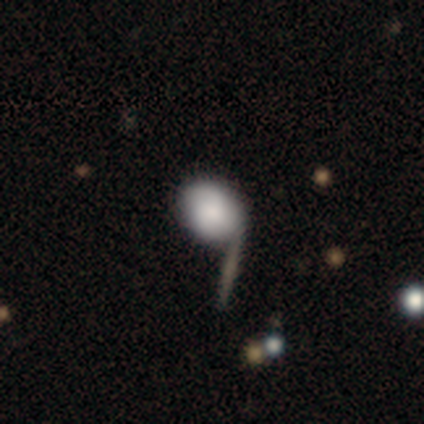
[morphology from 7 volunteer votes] Smooth or featured: smooth — 86% (star or artifact — 14%)
How rounded: in between — 67% (round — 33%)
Merging: none — 83% (minor disturbance — 17%)